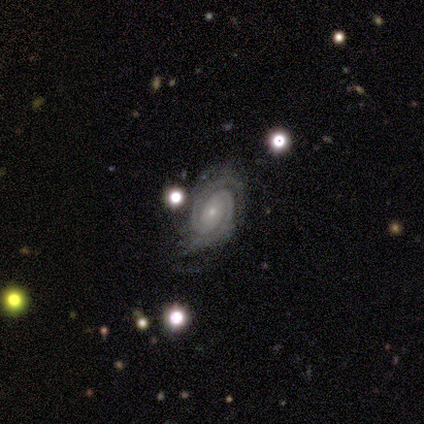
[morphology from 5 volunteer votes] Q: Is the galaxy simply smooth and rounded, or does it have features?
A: featured or disk — 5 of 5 (100%).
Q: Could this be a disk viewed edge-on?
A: no — 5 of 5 (100%).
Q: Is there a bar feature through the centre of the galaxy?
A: no — 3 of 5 (60%).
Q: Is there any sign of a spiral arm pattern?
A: yes — 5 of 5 (100%).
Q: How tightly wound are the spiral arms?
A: tight — 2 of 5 (40%, tied with medium).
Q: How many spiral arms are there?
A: can't tell — 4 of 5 (80%).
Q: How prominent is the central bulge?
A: small — 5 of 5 (100%).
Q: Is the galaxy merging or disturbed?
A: none — 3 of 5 (60%).